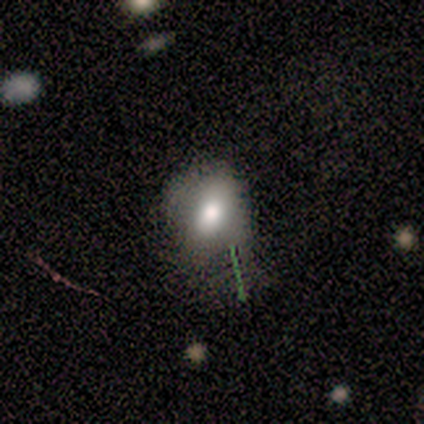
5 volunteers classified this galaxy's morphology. This appears to be a smooth galaxy with no disk features (40%, tied with featured or disk) that is round (50%, tied with in between). Merging: none (50%).